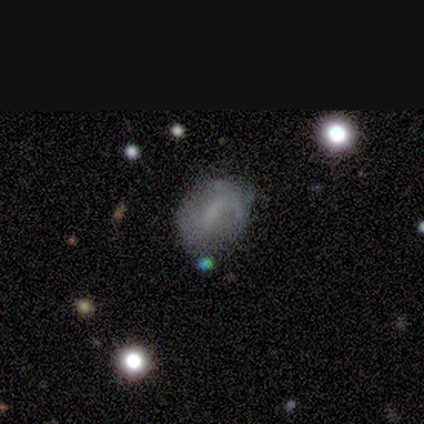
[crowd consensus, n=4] smooth_or_featured: smooth (p=0.50) [tied with: featured or disk p=0.50]
how_rounded: round (p=0.50) [tied with: in between p=0.50]
merging: minor disturbance (p=0.75) [alt: none p=0.25]